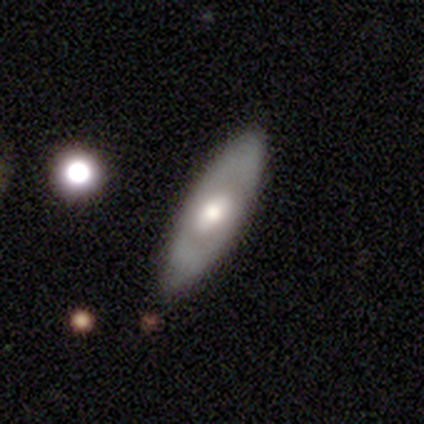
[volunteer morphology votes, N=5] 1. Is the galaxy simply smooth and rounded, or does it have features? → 60% smooth, 40% featured or disk, 0% star or artifact.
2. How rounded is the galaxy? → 67% in between, 33% cigar-shaped, 0% round.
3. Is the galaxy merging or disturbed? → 80% none, 20% minor disturbance, 0% major disturbance, 0% merger.